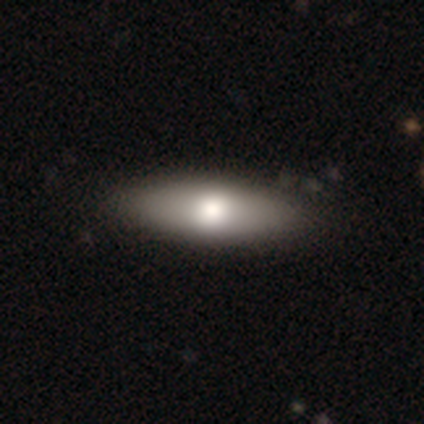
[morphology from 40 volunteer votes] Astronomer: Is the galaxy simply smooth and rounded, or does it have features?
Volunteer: smooth — 78%.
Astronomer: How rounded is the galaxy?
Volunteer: in between — 61% (runner-up: cigar-shaped, 39%).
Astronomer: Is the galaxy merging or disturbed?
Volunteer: none — 65%.